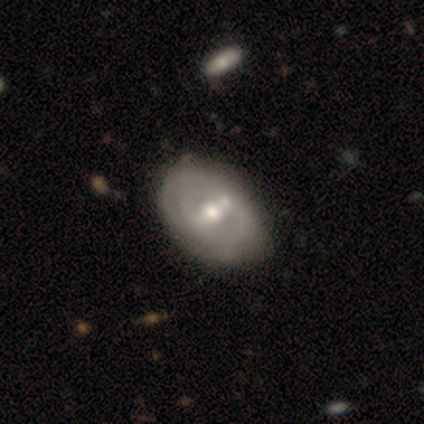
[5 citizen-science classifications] smooth-or-featured: smooth: 60% | featured or disk: 40% | star or artifact: 0%
  how-rounded: round: 67% | in between: 33% | cigar-shaped: 0%
  merging: minor disturbance: 60% | none: 40% | major disturbance: 0% | merger: 0%